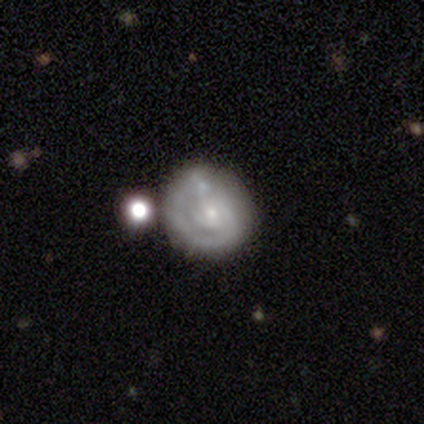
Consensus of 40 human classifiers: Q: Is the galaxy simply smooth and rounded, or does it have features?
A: featured or disk — 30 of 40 (75%).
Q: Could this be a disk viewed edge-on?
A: no — 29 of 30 (97%).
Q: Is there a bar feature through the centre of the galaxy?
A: no — 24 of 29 (83%).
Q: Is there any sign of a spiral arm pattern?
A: yes — 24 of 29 (83%).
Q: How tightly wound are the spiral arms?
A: tight — 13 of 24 (54%).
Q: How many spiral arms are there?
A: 2 — 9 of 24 (38%).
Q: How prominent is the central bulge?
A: small — 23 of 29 (79%).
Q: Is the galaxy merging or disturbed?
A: none — 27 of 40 (68%).